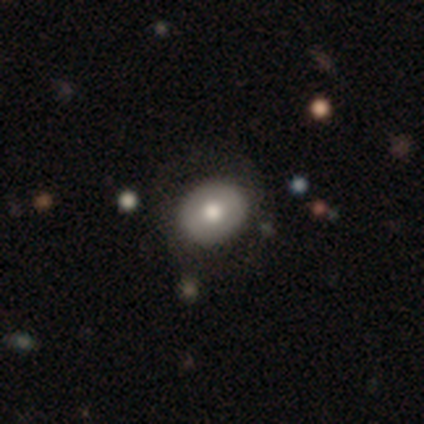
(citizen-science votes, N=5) Morphology: type=featured or disk (60%); edge-on=no (100%); bar=weak (67%); spiral arms=no (67%); bulge=moderate (100%); merging=none (100%).